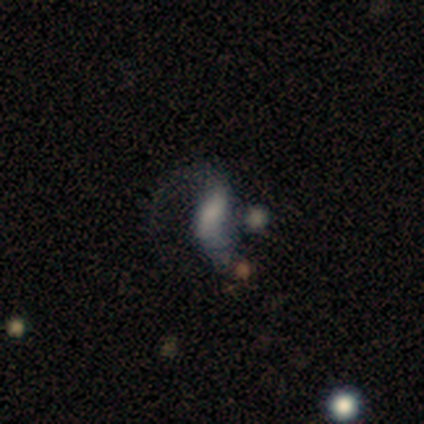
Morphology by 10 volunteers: smooth-or-featured: smooth: 40% (tied) | featured or disk: 40% (tied) | star or artifact: 20%
  how-rounded: in between: 75% | cigar-shaped: 25% | round: 0%
  merging: major disturbance: 88% | none: 12% | minor disturbance: 0% | merger: 0%